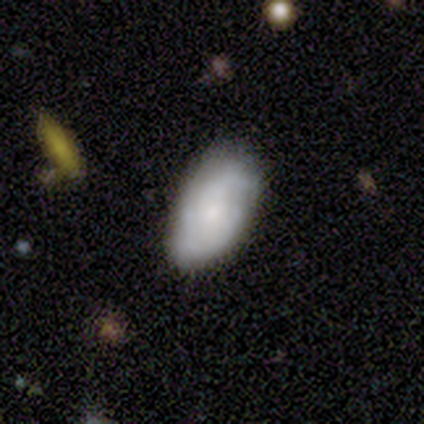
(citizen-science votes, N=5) Smooth or featured? 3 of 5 (60%) said featured or disk. Edge-on disk? 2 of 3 (67%) said no. Bar? 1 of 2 (50%, tied with no) said weak. Spiral arms? 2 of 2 (100%) said yes. Spiral winding? 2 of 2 (100%) said tight. Spiral arm count? 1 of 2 (50%, tied with can't tell) said 2. Bulge size? 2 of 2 (100%) said small. Merging? 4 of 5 (80%) said none.